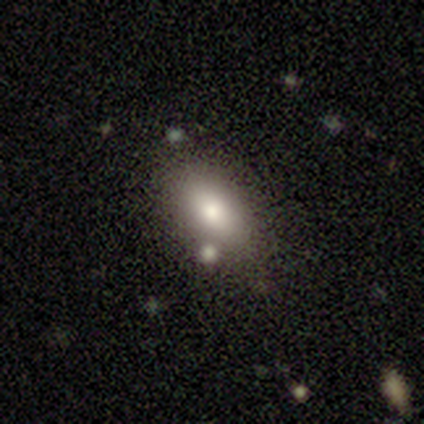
A smooth galaxy with no disk features (80%) that is in between round and cigar-shaped (75%). Merging: none (60%).